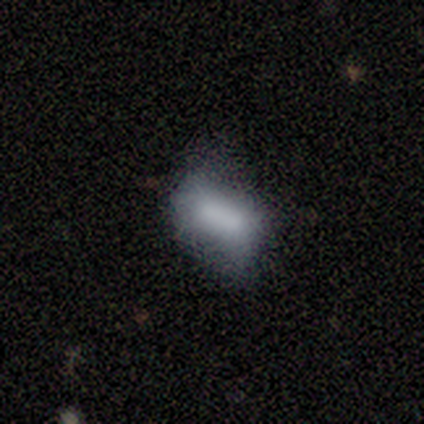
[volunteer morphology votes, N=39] A smooth galaxy with no disk features (56%) that is in between round and cigar-shaped (91%). Merging: none (41%).